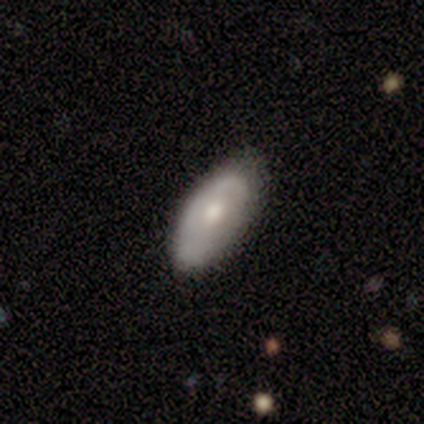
A smooth galaxy with no disk features (80%) that is in between round and cigar-shaped (100%). Merging: minor disturbance (60%).